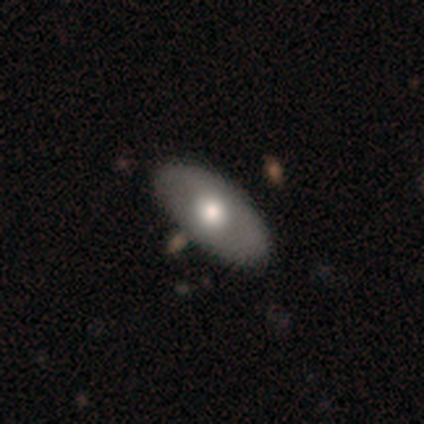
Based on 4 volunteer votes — Morphology: type=smooth (75%); roundness=in between (100%); merging=none (100%).